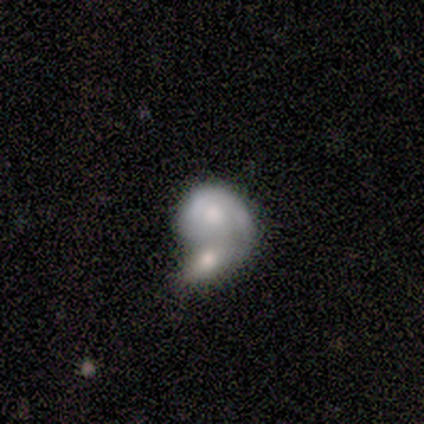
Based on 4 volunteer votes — Q: Smooth or featured?
A: featured or disk (100%)
Q: Edge-on disk?
A: no (100%)
Q: Bar?
A: no (100%)
Q: Spiral arms?
A: no (75%); runner-up: yes (25%)
Q: Bulge size?
A: moderate (75%); runner-up: large (25%)
Q: Merging?
A: merger (100%)